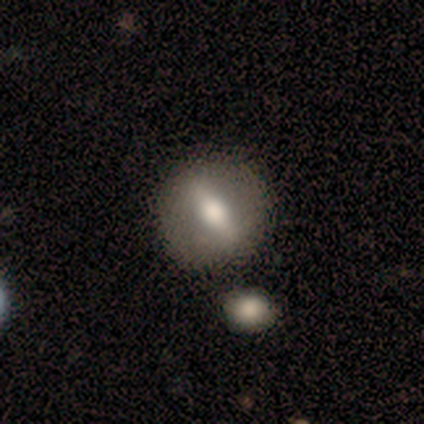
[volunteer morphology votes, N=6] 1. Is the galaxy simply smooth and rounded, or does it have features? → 83% featured or disk, 17% smooth, 0% star or artifact.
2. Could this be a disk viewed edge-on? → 60% yes, 40% no.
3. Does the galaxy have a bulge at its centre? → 100% rounded, 0% boxy, 0% none.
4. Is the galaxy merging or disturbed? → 100% none, 0% minor disturbance, 0% major disturbance, 0% merger.